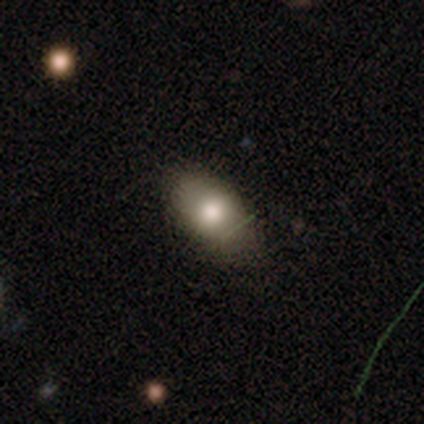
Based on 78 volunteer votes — Morphology: type=smooth (73%); roundness=in between (88%); merging=none (46%).